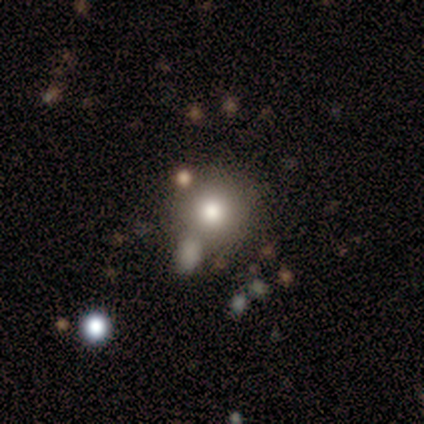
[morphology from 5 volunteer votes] smooth_or_featured: smooth (p=0.60) [alt: featured or disk p=0.20]
how_rounded: round (p=1.00)
merging: none (p=0.75) [alt: minor disturbance p=0.25]